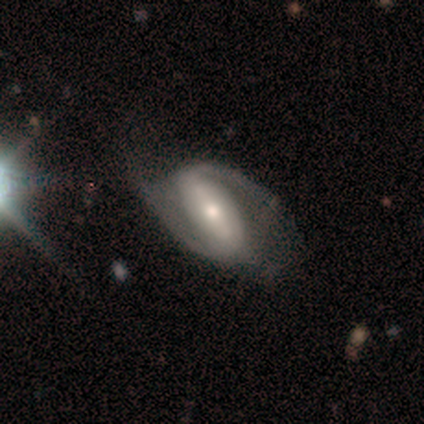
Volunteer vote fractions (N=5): Smooth or featured: featured or disk — 100%
Edge-on disk: no — 100%
Bar: strong — 80% (weak — 20%)
Spiral arms: yes — 100%
Spiral winding: loose — 60% (tight — 40%)
Spiral arm count: 2 — 100%
Bulge size: moderate — 40% (tied with small — 40%)
Merging: none — 60% (minor disturbance — 20%)